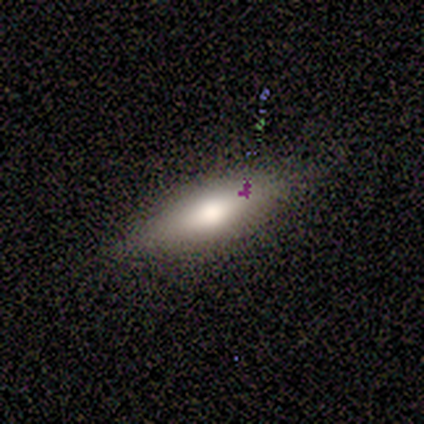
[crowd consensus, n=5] smooth_or_featured: smooth (p=0.60) [alt: featured or disk p=0.40]
how_rounded: cigar-shaped (p=0.67) [alt: in between p=0.33]
merging: none (p=0.80) [alt: minor disturbance p=0.20]